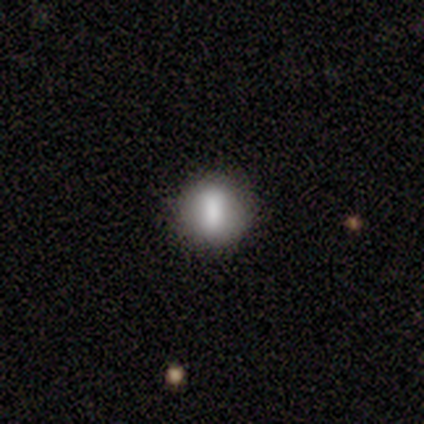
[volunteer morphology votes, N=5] smooth_or_featured: smooth (p=0.80) [alt: featured or disk p=0.20]
how_rounded: round (p=1.00)
merging: none (p=1.00)